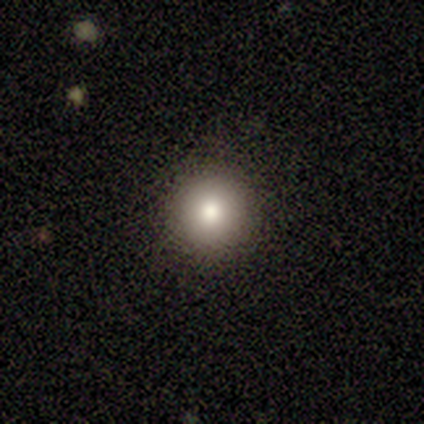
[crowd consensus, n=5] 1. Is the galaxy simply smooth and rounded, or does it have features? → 60% smooth, 20% featured or disk, 20% star or artifact.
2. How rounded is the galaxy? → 100% round, 0% in between, 0% cigar-shaped.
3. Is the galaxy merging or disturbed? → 100% none, 0% minor disturbance, 0% major disturbance, 0% merger.